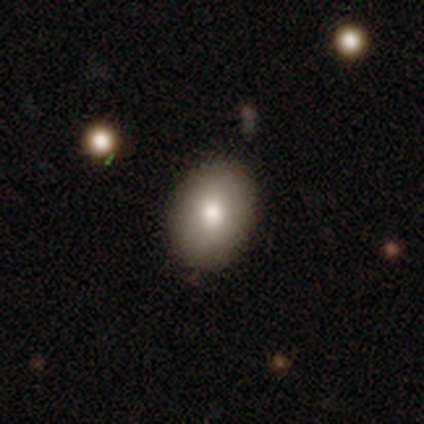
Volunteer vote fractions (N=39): A smooth galaxy with no disk features (87%) that is in between round and cigar-shaped (85%).

Vote fractions:
- Smooth or featured? smooth: 87% / featured or disk: 8% / star or artifact: 5%
- How rounded? in between: 85% / round: 15% / cigar-shaped: 0%
- Merging? none: 89% / minor disturbance: 11% / major disturbance: 0% / merger: 0%